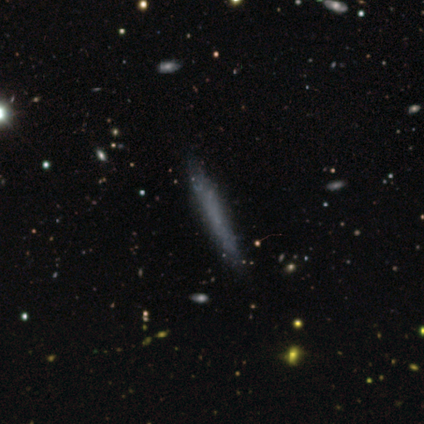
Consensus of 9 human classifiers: Smooth or featured: smooth — 56% (featured or disk — 44%)
How rounded: cigar-shaped — 100%
Merging: none — 89% (minor disturbance — 11%)